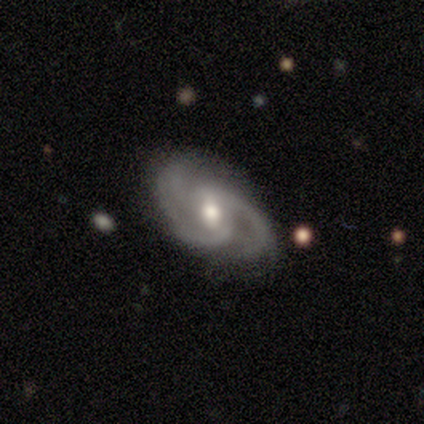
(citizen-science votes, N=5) Q: Smooth or featured?
A: featured or disk (100%)
Q: Edge-on disk?
A: no (100%)
Q: Bar?
A: weak (80%); runner-up: no (20%)
Q: Spiral arms?
A: yes (100%)
Q: Spiral winding?
A: tight (40%); tied with: medium (40%)
Q: Spiral arm count?
A: 2 (80%); runner-up: can't tell (20%)
Q: Bulge size?
A: moderate (60%); runner-up: small (40%)
Q: Merging?
A: none (60%); runner-up: minor disturbance (20%)